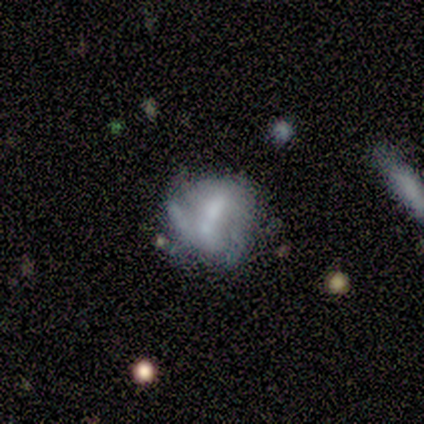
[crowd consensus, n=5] Q: Smooth or featured?
A: featured or disk (100%)
Q: Edge-on disk?
A: no (100%)
Q: Bar?
A: no (60%); runner-up: strong (20%)
Q: Spiral arms?
A: no (60%); runner-up: yes (40%)
Q: Bulge size?
A: none (60%); runner-up: small (40%)
Q: Merging?
A: none (40%); tied with: major disturbance (40%)